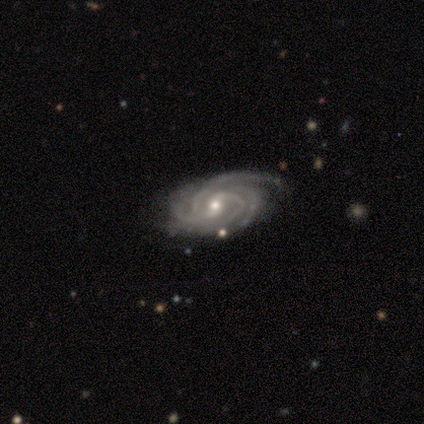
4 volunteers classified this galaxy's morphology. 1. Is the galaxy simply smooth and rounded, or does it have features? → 100% featured or disk, 0% smooth, 0% star or artifact.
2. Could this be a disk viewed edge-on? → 100% no, 0% yes.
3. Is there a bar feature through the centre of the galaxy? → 50% strong, 25% weak, 25% no.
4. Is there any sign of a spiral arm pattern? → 100% yes, 0% no.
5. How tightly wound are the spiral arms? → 100% tight, 0% medium, 0% loose.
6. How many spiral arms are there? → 50% 4, 25% 2, 25% more than 4, 0% 1, 0% 3, 0% can't tell.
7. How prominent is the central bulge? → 75% small, 25% moderate, 0% dominant, 0% large, 0% none.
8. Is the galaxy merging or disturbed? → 75% none, 25% minor disturbance, 0% major disturbance, 0% merger.